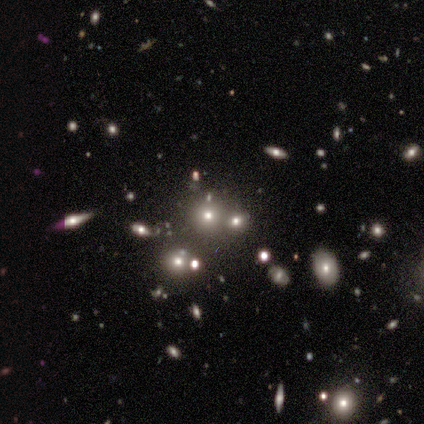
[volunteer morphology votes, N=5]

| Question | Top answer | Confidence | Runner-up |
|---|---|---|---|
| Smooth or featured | smooth | 40% | tied: star or artifact (40%) |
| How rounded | round | 50% | tied: in between (50%) |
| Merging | none | 100% | — |